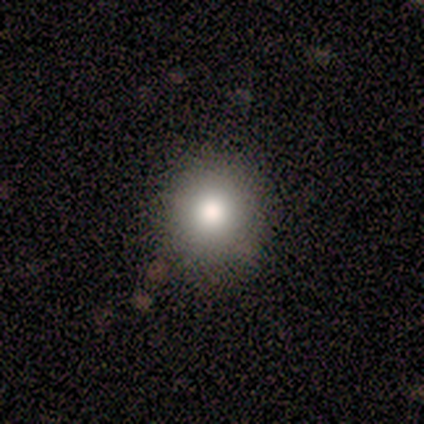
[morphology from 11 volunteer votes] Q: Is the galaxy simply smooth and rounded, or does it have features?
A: smooth — 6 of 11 (55%).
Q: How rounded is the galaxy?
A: round — 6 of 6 (100%).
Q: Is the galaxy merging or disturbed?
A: none — 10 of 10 (100%).